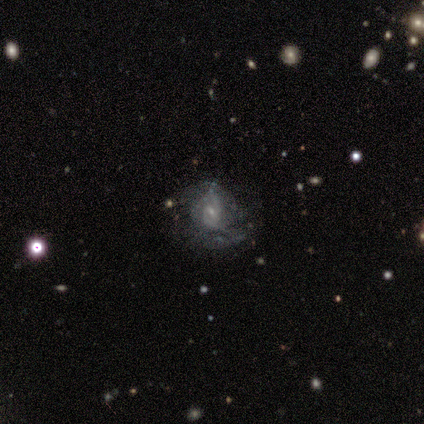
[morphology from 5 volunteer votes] Volunteers were most divided on "spiral winding" (2-way tie): tight: 50%, medium: 50%, loose: 0%; "merging" (2-way tie): none: 40%, minor disturbance: 40%, major disturbance: 20%, merger: 0%. More confident: edge-on disk — no (100%); spiral arm count — 2 (100%); bulge size — small (100%); bar — no (67%); spiral arms — yes (67%); smooth or featured — featured or disk (60%).